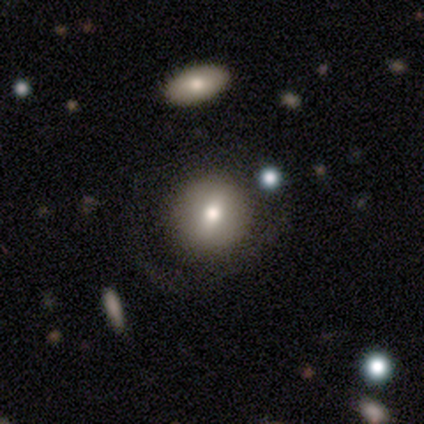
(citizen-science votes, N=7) A smooth galaxy with no disk features (43%, tied with featured or disk) that is round (67%). Merging: none (83%).